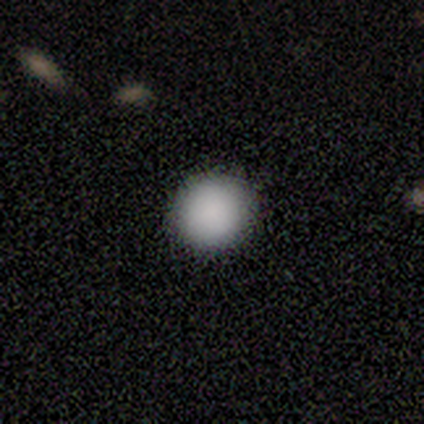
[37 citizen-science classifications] This appears to be a smooth galaxy with no disk features (84%) that is round (97%). Merging: none (100%).